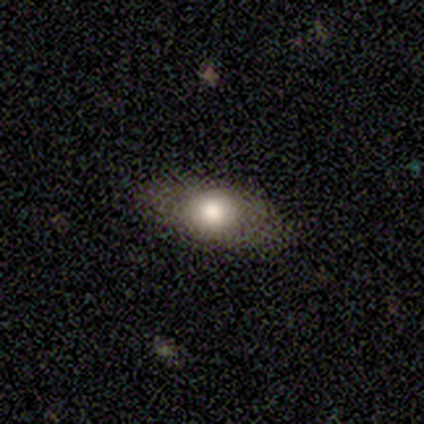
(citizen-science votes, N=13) Morphology: type=smooth (85%); roundness=in between (91%); merging=none (83%).